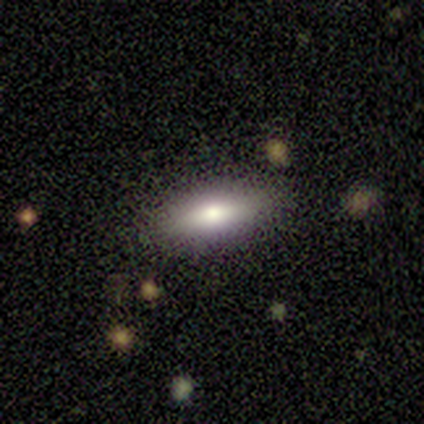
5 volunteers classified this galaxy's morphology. smooth 100%, featured or disk 0%, star or artifact 0%. Down the decision tree: how rounded — in between (60%); merging — none (80%).